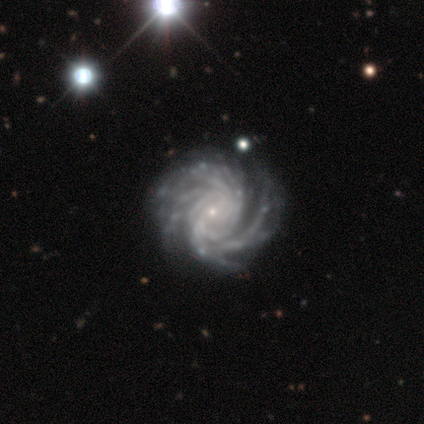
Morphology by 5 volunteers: This is clearly a featured or disk galaxy (100%). It is clearly not viewed edge-on (100%). Bar: likely no (60%). Spiral arm pattern: clearly yes (100%). Spiral arm count: marginally 3 (40%, tied with more than 4). Spiral winding: clearly tight (100%). Central bulge: clearly small (100%). Merging: likely none (60%).